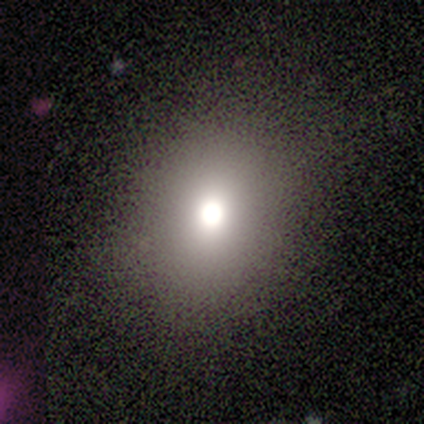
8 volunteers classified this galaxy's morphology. Volunteers were most divided on "how rounded": in between: 60%, round: 40%, cigar-shaped: 0%. More confident: merging — none (100%); smooth or featured — smooth (62%).